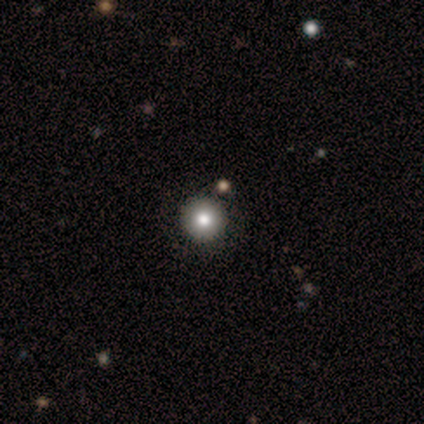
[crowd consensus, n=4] This is possibly a smooth galaxy (50%). How rounded: clearly round (100%). Merging: likely none (67%).